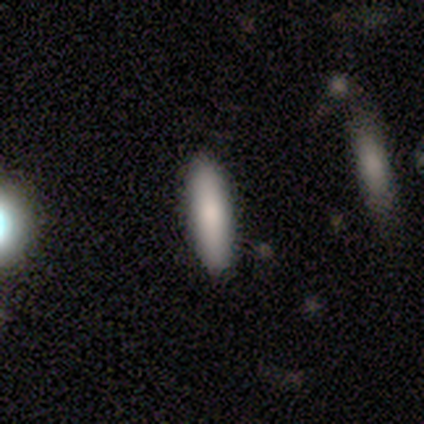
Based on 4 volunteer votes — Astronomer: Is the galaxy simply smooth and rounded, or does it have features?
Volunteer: smooth — 100%.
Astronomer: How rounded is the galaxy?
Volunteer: cigar-shaped — 75%.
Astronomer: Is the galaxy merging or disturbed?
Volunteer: none — 100%.